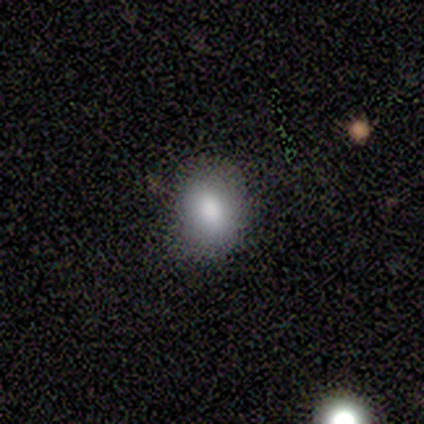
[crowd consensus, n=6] Smooth or featured? 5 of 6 (83%) said smooth. How rounded? 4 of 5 (80%) said round. Merging? 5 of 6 (83%) said none.